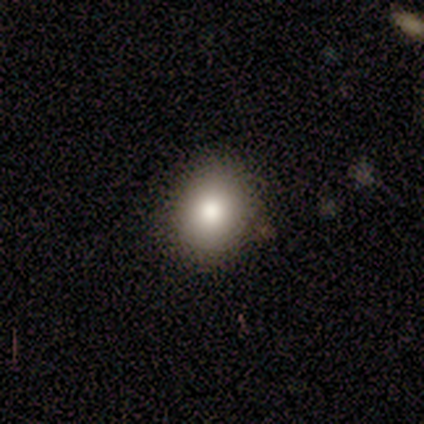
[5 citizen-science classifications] Consensus on every question: smooth or featured — smooth (100%); how rounded — round (100%); merging — none (100%).